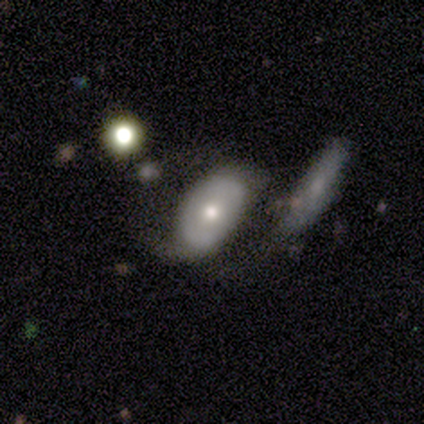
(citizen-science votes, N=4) Smooth or featured? smooth (50%, tied with featured or disk)
How rounded? in between (100%)
Merging? minor disturbance (50%)